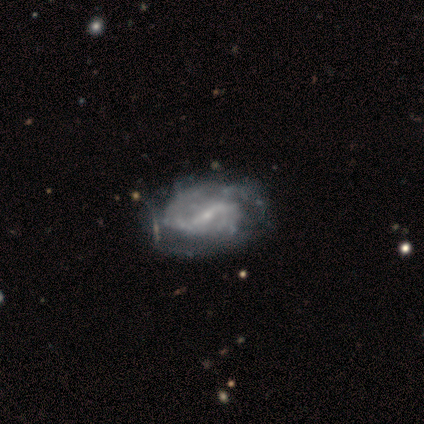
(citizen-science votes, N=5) Smooth or featured? 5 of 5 (100%) said featured or disk. Edge-on disk? 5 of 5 (100%) said no. Bar? 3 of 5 (60%) said no. Spiral arms? 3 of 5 (60%) said yes. Spiral winding? 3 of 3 (100%) said loose. Spiral arm count? 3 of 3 (100%) said 2. Bulge size? 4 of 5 (80%) said small. Merging? 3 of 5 (60%) said minor disturbance.